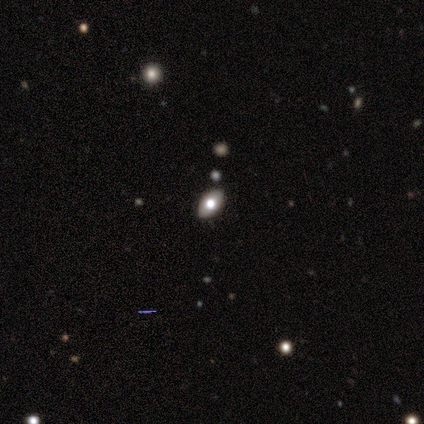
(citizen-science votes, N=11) Smooth or featured?
  - smooth: 82% *
  - featured or disk: 9%
  - star or artifact: 9%
How rounded?
  - in between: 100% *
  - round: 0%
  - cigar-shaped: 0%
Merging?
  - none: 90% *
  - minor disturbance: 10%
  - major disturbance: 0%
  - merger: 0%